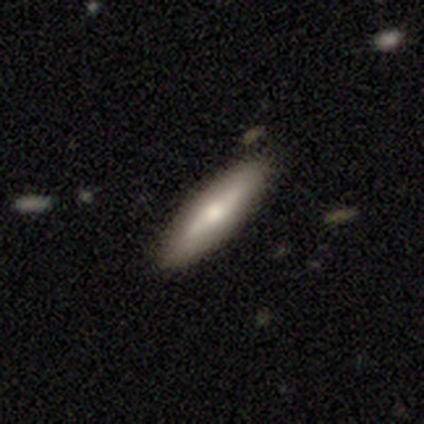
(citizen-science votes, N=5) Consensus on every question: smooth or featured — featured or disk (100%); edge-on disk — yes (100%); edge-on bulge — rounded (100%); merging — none (100%).